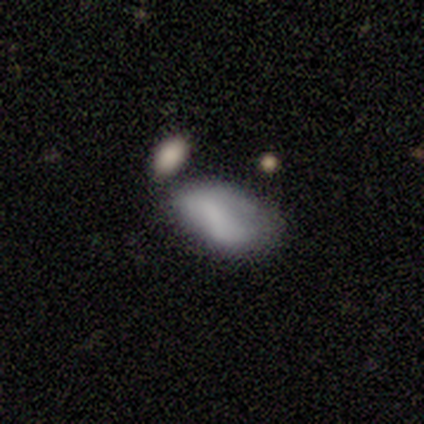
A smooth galaxy with no disk features (55%) that is in between round and cigar-shaped (100%). Merging: minor disturbance (51%).